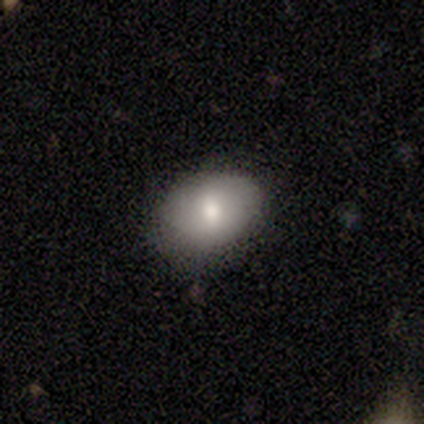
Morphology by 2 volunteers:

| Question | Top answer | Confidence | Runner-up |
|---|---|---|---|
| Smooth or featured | smooth | 100% | — |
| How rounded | round | 50% | tied: in between (50%) |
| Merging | none | 50% | tied: minor disturbance (50%) |